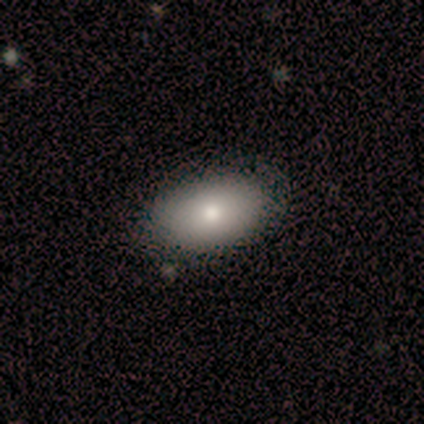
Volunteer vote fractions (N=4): This is clearly a smooth galaxy (100%). How rounded: clearly in between (100%). Merging: clearly none (100%).